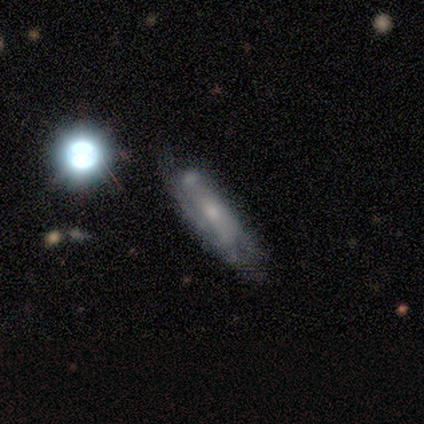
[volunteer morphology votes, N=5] A featured or disk galaxy (100%) with no bar (60%), tight (50%) spiral arms (80%) and a small central bulge (80%).

Vote fractions:
- Smooth or featured? featured or disk: 100% / smooth: 0% / star or artifact: 0%
- Edge-on disk? no: 100% / yes: 0%
- Bar? no: 60% / weak: 40% / strong: 0%
- Spiral arms? yes: 80% / no: 20%
- Spiral winding? tight: 50% / medium: 25% / loose: 25%
- Spiral arm count? can't tell: 50% / 2: 25% / 4: 25% / 1: 0% / 3: 0% / more than 4: 0%
- Bulge size? small: 80% / moderate: 20% / dominant: 0% / large: 0% / none: 0%
- Merging? none: 40% (tied) / minor disturbance: 40% (tied) / major disturbance: 20% / merger: 0%